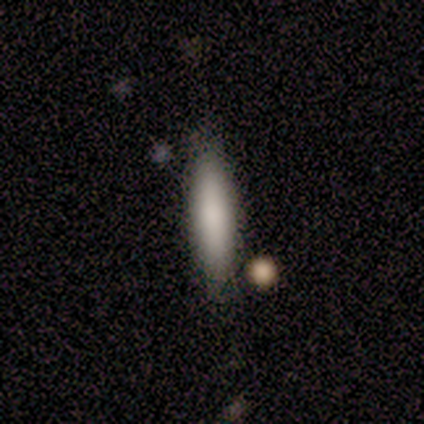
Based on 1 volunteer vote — Smooth or featured: smooth — 100%
How rounded: cigar-shaped — 100%
Merging: none — 100%